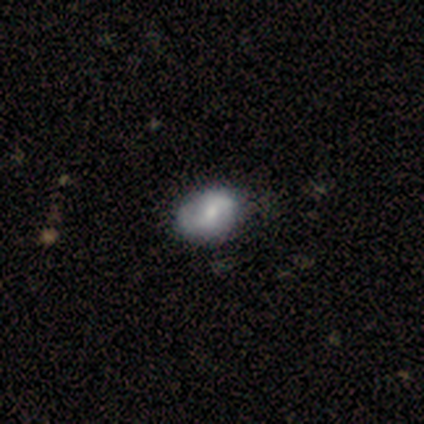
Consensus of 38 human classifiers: This appears to be a featured or disk galaxy (55%) with no bar (48%), 2 (83%) medium (56%) spiral arms (86%) and a moderate central bulge (67%). Merging: none (43%).